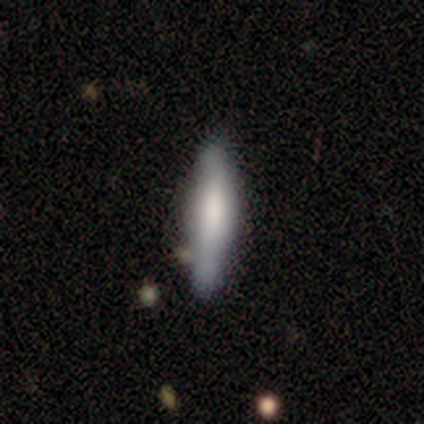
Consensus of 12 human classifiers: Volunteers were most divided on "edge-on bulge" (3-way tie): boxy: 33%, none: 33%, rounded: 33%. More confident: edge-on disk — yes (100%); merging — none (73%); smooth or featured — featured or disk (50%).